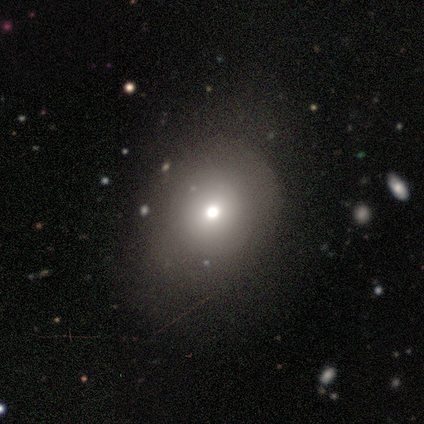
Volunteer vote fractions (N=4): This is clearly a smooth galaxy (100%). How rounded: clearly round (100%). Merging: likely none (75%).